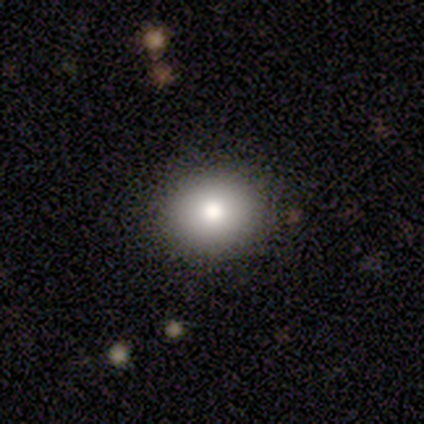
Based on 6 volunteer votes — Volunteers were most divided on "how rounded": round: 83%, in between: 17%, cigar-shaped: 0%. More confident: smooth or featured — smooth (100%); merging — none (83%).